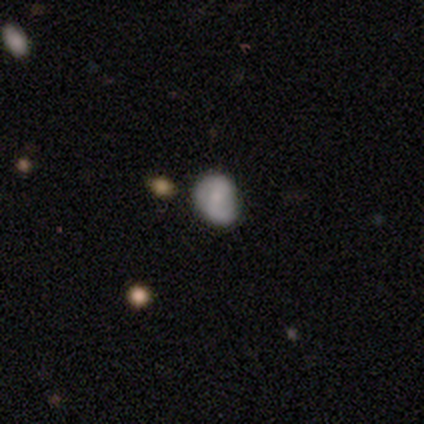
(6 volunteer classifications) Morphology: type=smooth (50%, tied with featured or disk); roundness=in between (67%); merging=none (50%, tied with minor disturbance).